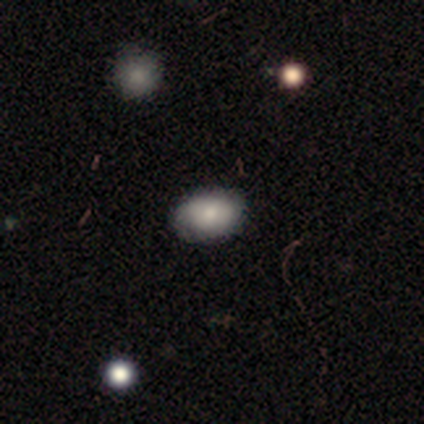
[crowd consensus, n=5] Smooth or featured?
  - smooth: 40% * (tied)
  - featured or disk: 40% * (tied)
  - star or artifact: 20%
How rounded?
  - in between: 100% *
  - round: 0%
  - cigar-shaped: 0%
Merging?
  - none: 100% *
  - minor disturbance: 0%
  - major disturbance: 0%
  - merger: 0%